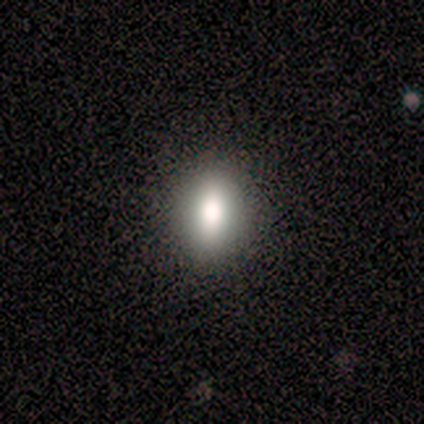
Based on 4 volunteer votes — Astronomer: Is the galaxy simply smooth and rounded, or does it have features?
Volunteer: smooth — 100%.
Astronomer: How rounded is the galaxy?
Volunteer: in between — 100%.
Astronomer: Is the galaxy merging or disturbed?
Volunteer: none — 100%.